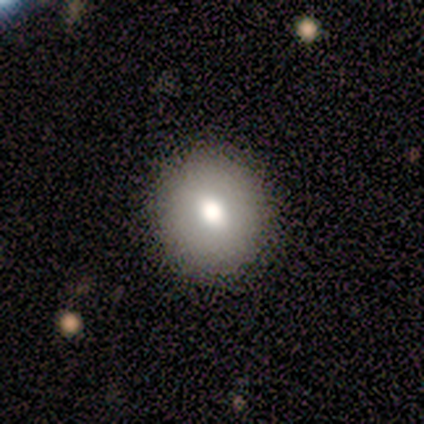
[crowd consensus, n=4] smooth_or_featured: smooth (p=0.75) [alt: star or artifact p=0.25]
how_rounded: round (p=1.00)
merging: none (p=1.00)